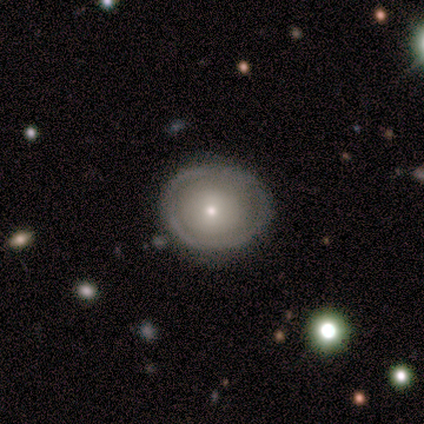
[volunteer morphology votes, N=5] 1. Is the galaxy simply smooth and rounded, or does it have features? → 60% featured or disk, 40% smooth, 0% star or artifact.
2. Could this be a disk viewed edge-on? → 100% no, 0% yes.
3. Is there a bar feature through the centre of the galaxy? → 100% no, 0% strong, 0% weak.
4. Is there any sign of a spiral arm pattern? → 100% no, 0% yes.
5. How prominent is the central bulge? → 67% moderate, 33% small, 0% dominant, 0% large, 0% none.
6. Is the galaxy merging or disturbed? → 100% none, 0% minor disturbance, 0% major disturbance, 0% merger.